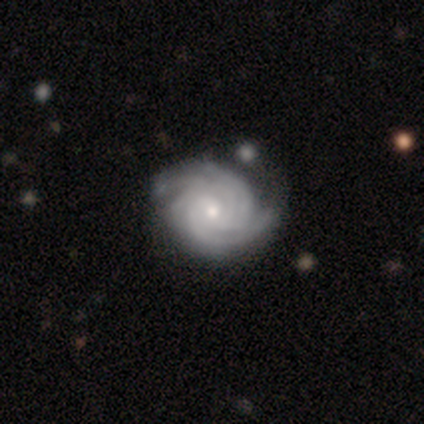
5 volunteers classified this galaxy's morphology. smooth-or-featured: featured or disk: 60% | smooth: 40% | star or artifact: 0%
  disk-edge-on: no: 100% | yes: 0%
    bar: no: 100% | strong: 0% | weak: 0%
    has-spiral-arms: yes: 100% | no: 0%
      spiral-winding: tight: 67% | medium: 33% | loose: 0%
      spiral-arm-count: 2: 33% (tied) | more than 4: 33% (tied) | can't tell: 33% (tied) | 1: 0% | 3: 0% | 4: 0%
    bulge-size: small: 67% | moderate: 33% | dominant: 0% | large: 0% | none: 0%
  merging: none: 80% | minor disturbance: 20% | major disturbance: 0% | merger: 0%